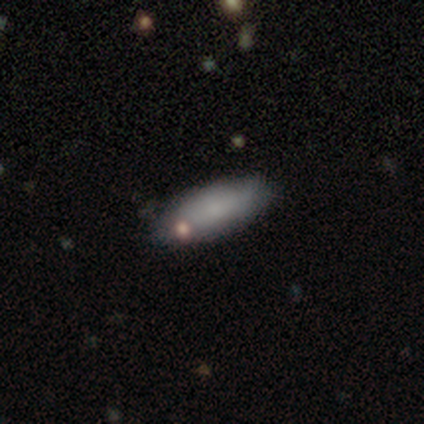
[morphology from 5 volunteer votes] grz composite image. It shows a smooth galaxy with no disk features (60%) that is in between round and cigar-shaped (67%). Merging: none (60%).